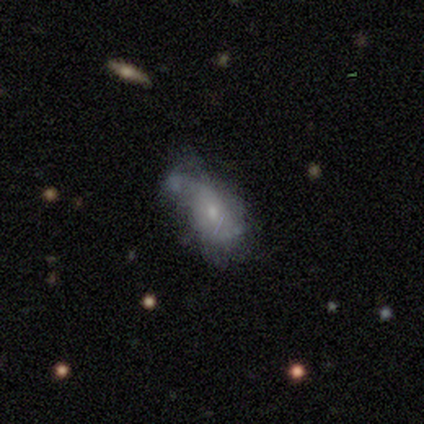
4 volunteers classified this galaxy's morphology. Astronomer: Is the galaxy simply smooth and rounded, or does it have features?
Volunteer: smooth — 50%, tied with featured or disk at 50%.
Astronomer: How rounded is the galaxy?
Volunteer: in between — 100%.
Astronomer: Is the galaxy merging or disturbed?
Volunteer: major disturbance — 50%.